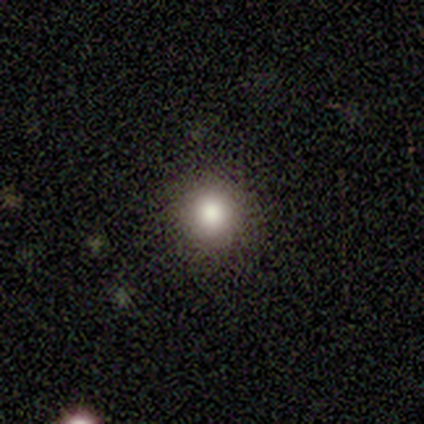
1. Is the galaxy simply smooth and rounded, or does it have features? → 100% smooth, 0% featured or disk, 0% star or artifact.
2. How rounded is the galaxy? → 80% round, 20% in between, 0% cigar-shaped.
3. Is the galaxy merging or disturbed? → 100% none, 0% minor disturbance, 0% major disturbance, 0% merger.